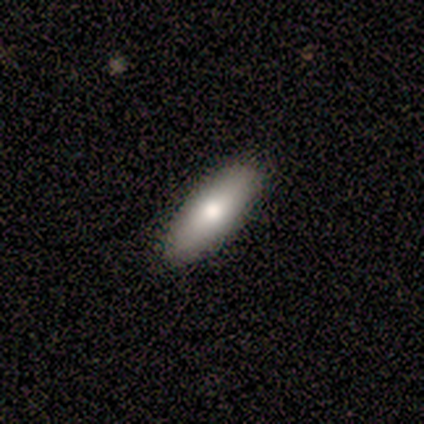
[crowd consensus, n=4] A smooth galaxy with no disk features (75%) that is in between round and cigar-shaped (100%). Merging: none (33%, tied with minor disturbance and major disturbance).